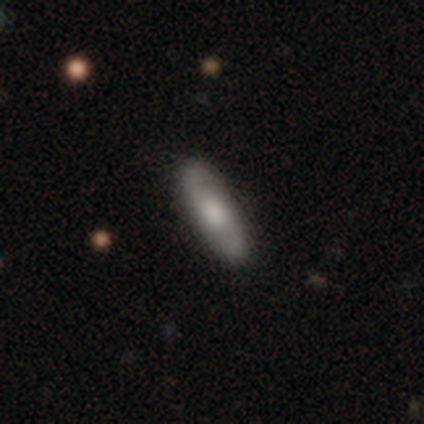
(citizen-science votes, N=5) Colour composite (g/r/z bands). It shows a featured or disk galaxy (60%) with no bar (100%), 2 (100%) medium (67%) spiral arms (100%) and a moderate central bulge (67%). Merging: none (100%).